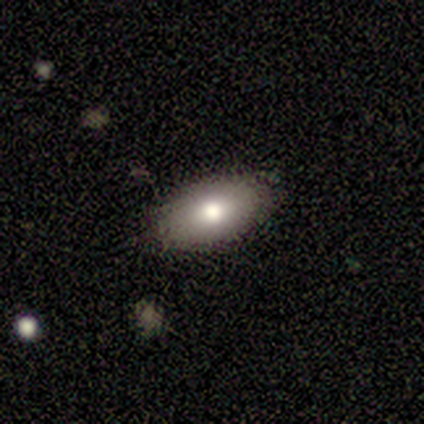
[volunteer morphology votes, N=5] A smooth galaxy with no disk features (80%) that is in between round and cigar-shaped (100%).

Vote fractions:
- Smooth or featured? smooth: 80% / featured or disk: 20% / star or artifact: 0%
- How rounded? in between: 100% / round: 0% / cigar-shaped: 0%
- Merging? none: 80% / minor disturbance: 20% / major disturbance: 0% / merger: 0%